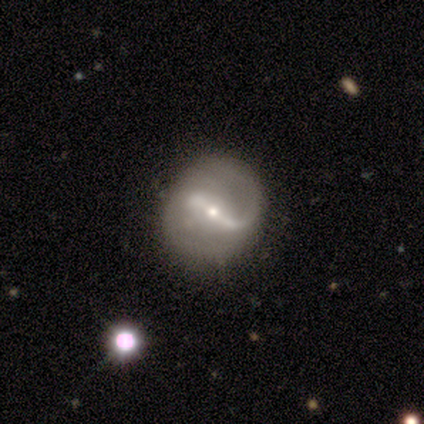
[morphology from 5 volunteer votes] This appears to be a featured or disk galaxy (100%) with a strong bar (60%), 2 (100%) medium (60%) spiral arms (100%) and a small central bulge (100%). Merging: none (60%).